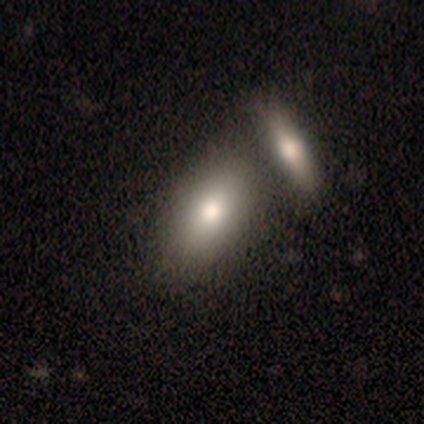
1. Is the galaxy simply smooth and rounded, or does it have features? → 100% smooth, 0% featured or disk, 0% star or artifact.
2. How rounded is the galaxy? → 80% in between, 20% round, 0% cigar-shaped.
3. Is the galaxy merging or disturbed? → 60% merger, 40% none, 0% minor disturbance, 0% major disturbance.